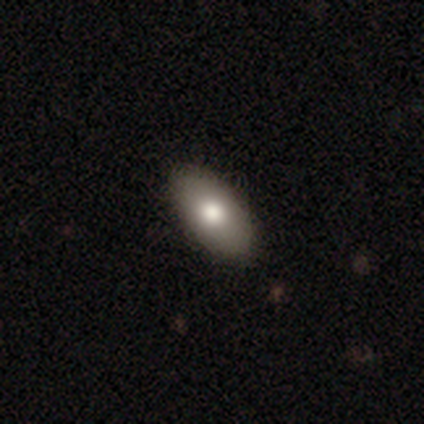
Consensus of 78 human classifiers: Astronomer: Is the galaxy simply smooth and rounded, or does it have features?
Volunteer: smooth — 85%.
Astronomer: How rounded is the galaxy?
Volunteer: in between — 95%.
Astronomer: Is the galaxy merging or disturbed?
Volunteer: none — 53%.